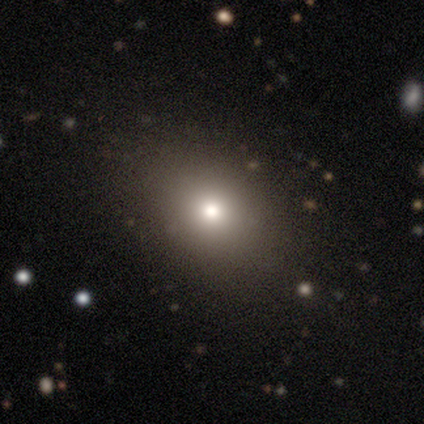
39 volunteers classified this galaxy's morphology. Q: Smooth or featured?
A: smooth (74%); runner-up: featured or disk (13%)
Q: How rounded?
A: in between (59%); runner-up: round (38%)
Q: Merging?
A: none (71%); runner-up: minor disturbance (6%)